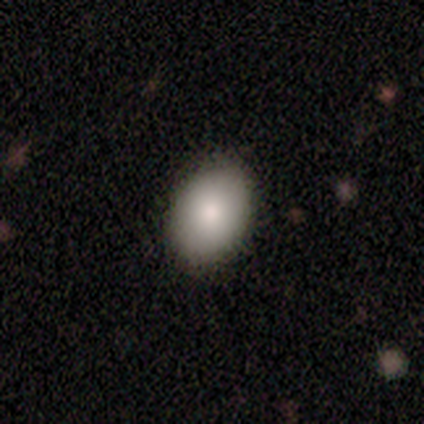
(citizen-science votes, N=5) Smooth or featured? 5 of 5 (100%) said smooth. How rounded? 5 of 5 (100%) said in between. Merging? 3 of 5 (60%) said none.